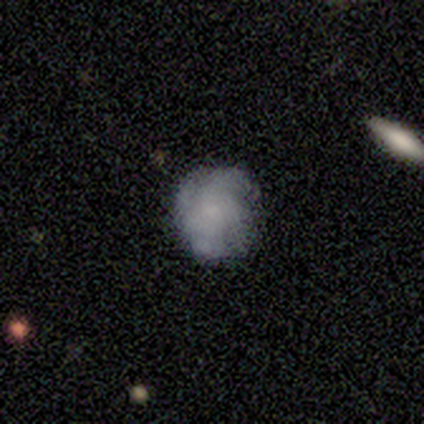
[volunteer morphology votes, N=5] A smooth galaxy with no disk features (40%, tied with featured or disk) that is round (100%).

Vote fractions:
- Smooth or featured? smooth: 40% (tied) / featured or disk: 40% (tied) / star or artifact: 20%
- How rounded? round: 100% / in between: 0% / cigar-shaped: 0%
- Merging? none: 50% / major disturbance: 25% / merger: 25% / minor disturbance: 0%